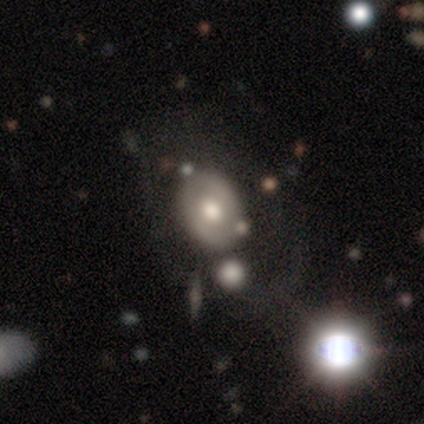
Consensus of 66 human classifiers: smooth_or_featured: featured or disk (p=0.59) [alt: smooth p=0.32]
disk_edge_on: no (p=1.00)
bar: no (p=0.69) [alt: weak p=0.26]
has_spiral_arms: no (p=0.77) [alt: yes p=0.23]
bulge_size: moderate (p=0.67) [alt: large p=0.23]
merging: none (p=0.58) [alt: major disturbance p=0.17]